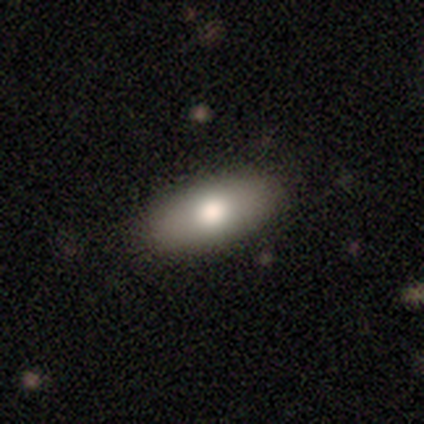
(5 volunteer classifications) smooth 100%, featured or disk 0%, star or artifact 0%. Down the decision tree: how rounded — in between (100%); merging — none (100%).